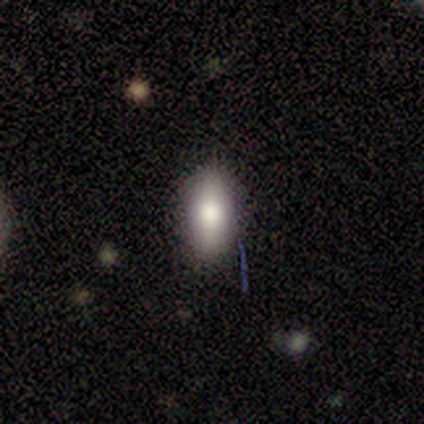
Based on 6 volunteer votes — Smooth or featured?
  - smooth: 67% *
  - featured or disk: 17%
  - star or artifact: 17%
How rounded?
  - in between: 100% *
  - round: 0%
  - cigar-shaped: 0%
Merging?
  - none: 100% *
  - minor disturbance: 0%
  - major disturbance: 0%
  - merger: 0%